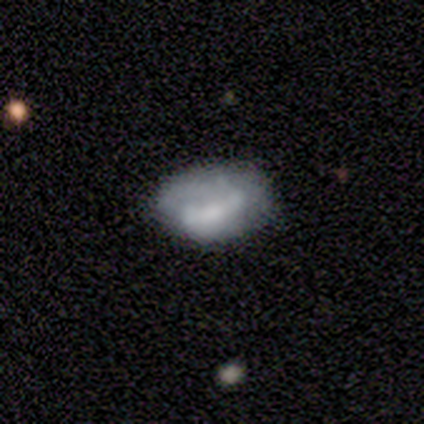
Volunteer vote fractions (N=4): A smooth galaxy with no disk features (50%) that is in between round and cigar-shaped (100%). Merging: none (67%).